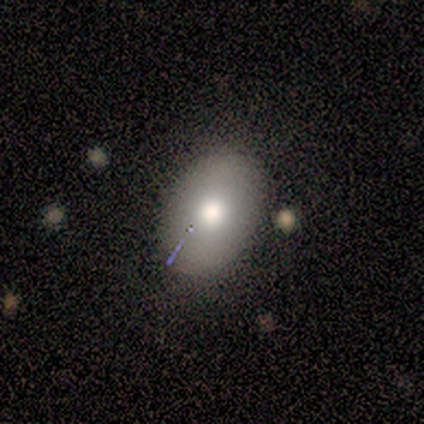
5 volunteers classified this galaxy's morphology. Smooth or featured? 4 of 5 (80%) said smooth. How rounded? 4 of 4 (100%) said in between. Merging? 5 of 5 (100%) said none.